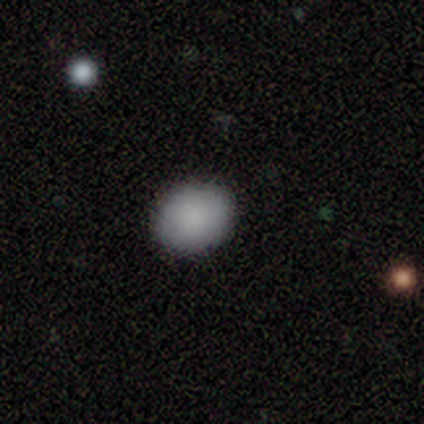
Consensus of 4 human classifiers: This appears to be a smooth galaxy with no disk features (75%) that is in between round and cigar-shaped (67%). Merging: none (100%).